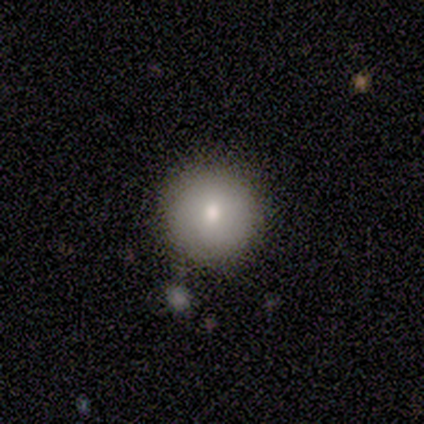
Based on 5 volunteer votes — smooth-or-featured: smooth: 80% | featured or disk: 20% | star or artifact: 0%
  how-rounded: round: 100% | in between: 0% | cigar-shaped: 0%
  merging: none: 100% | minor disturbance: 0% | major disturbance: 0% | merger: 0%